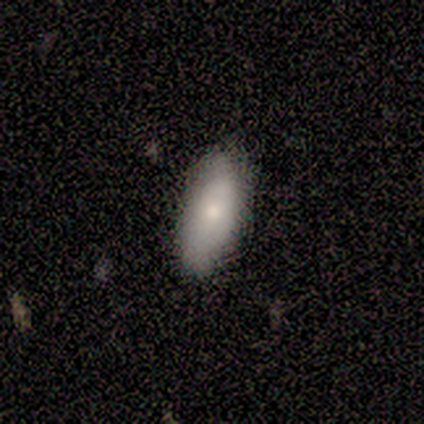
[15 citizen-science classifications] Morphology: type=smooth (80%); roundness=in between (50%, tied with cigar-shaped); merging=none (87%).